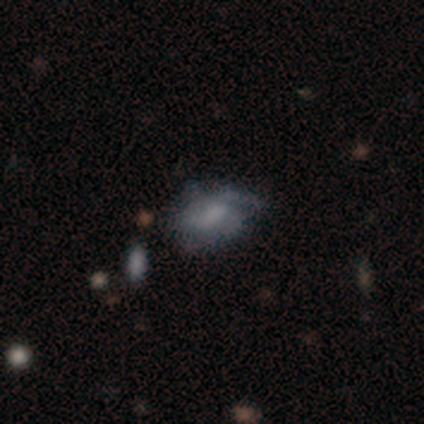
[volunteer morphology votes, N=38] smooth-or-featured: featured or disk: 50% | smooth: 37% | star or artifact: 13%
  disk-edge-on: no: 100% | yes: 0%
    bar: no: 68% | weak: 32% | strong: 0%
    has-spiral-arms: yes: 58% | no: 42%
      spiral-winding: tight: 55% | medium: 36% | loose: 9%
      spiral-arm-count: can't tell: 45% | 1: 18% | 2: 18% | 3: 18% | 4: 0% | more than 4: 0%
    bulge-size: none: 58% | small: 21% | moderate: 16% | large: 5% | dominant: 0%
  merging: none: 70% | minor disturbance: 24% | major disturbance: 6% | merger: 0%